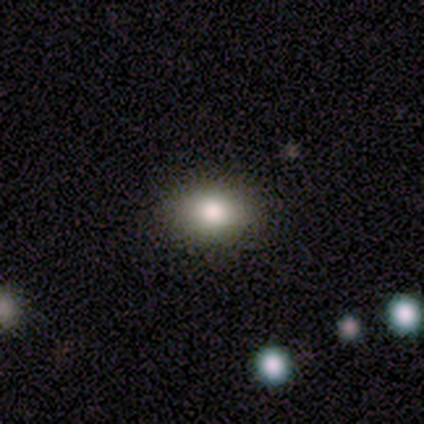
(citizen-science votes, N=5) Overall: smooth (80%). How rounded: in between (100%). Merging: none (100%).